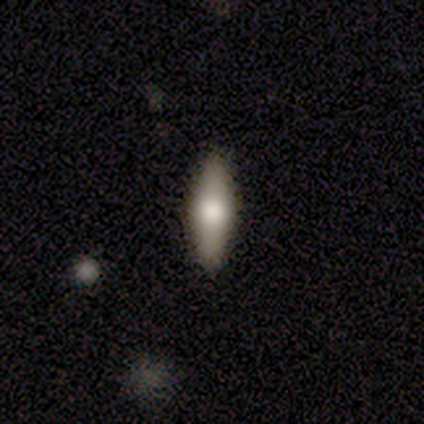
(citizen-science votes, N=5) A smooth galaxy with no disk features (80%) that is in between round and cigar-shaped (50%, tied with cigar-shaped). Merging: none (80%).